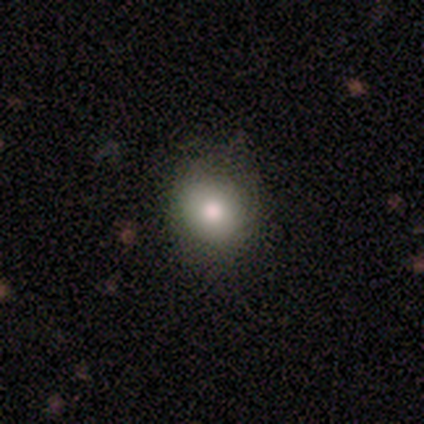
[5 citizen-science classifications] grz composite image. It shows a smooth galaxy with no disk features (100%) that is round (100%). Merging: none (80%).